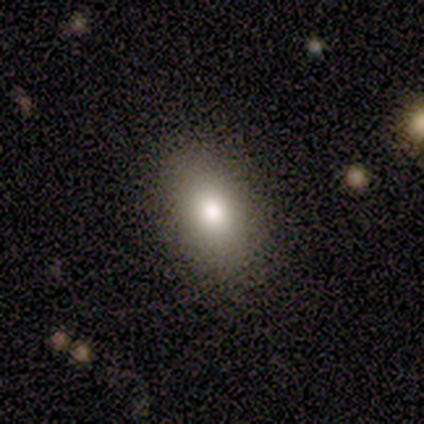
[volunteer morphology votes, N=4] Volunteers were most divided on "smooth or featured": smooth: 75%, featured or disk: 25%, star or artifact: 0%. More confident: how rounded — in between (100%); merging — none (75%).